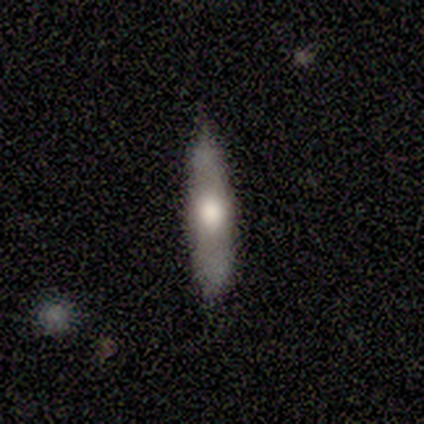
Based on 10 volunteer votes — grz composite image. It shows a smooth galaxy with no disk features (50%) that is cigar-shaped (100%). Merging: none (78%).